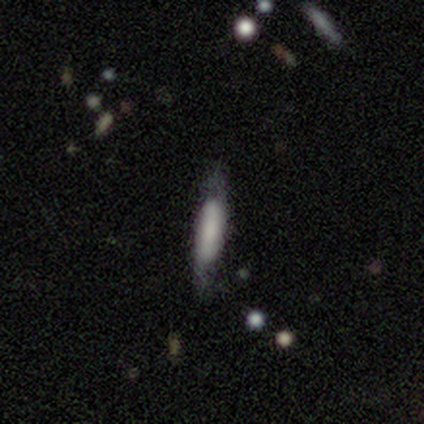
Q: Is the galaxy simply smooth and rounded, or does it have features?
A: smooth — 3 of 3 (100%).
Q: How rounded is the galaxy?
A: cigar-shaped — 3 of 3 (100%).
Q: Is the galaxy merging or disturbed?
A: none — 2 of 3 (67%).